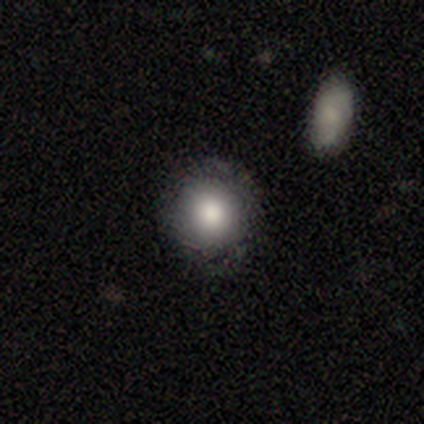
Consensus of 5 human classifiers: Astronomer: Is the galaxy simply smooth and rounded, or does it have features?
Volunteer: smooth — 80%.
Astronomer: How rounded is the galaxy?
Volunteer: round — 100%.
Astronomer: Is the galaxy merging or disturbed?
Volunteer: none — 60% (runner-up: minor disturbance, 40%).